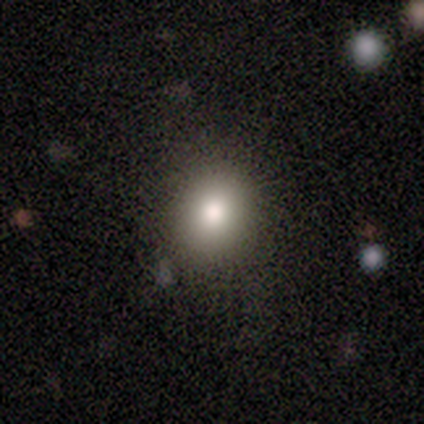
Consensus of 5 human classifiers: Overall: smooth (100%). How rounded: round (100%). Merging: none (80%).